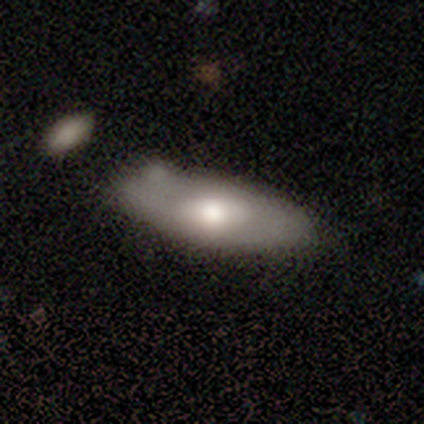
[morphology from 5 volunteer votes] smooth-or-featured: smooth: 80% | featured or disk: 20% | star or artifact: 0%
  how-rounded: in between: 75% | round: 25% | cigar-shaped: 0%
  merging: none: 80% | minor disturbance: 20% | major disturbance: 0% | merger: 0%